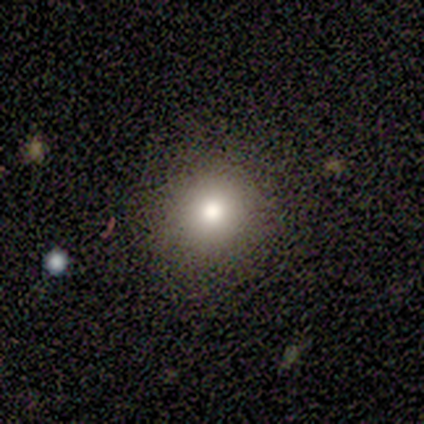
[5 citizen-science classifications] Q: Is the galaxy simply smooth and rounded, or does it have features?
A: smooth — 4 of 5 (80%).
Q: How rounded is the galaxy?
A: round — 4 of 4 (100%).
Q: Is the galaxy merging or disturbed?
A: none — 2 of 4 (50%, tied with minor disturbance).